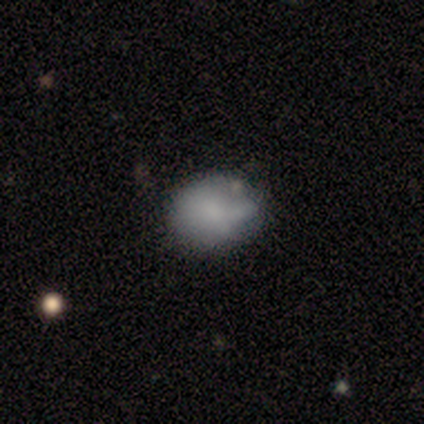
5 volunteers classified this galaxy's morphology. This appears to be a smooth galaxy with no disk features (80%) that is round (75%). Merging: none (50%).